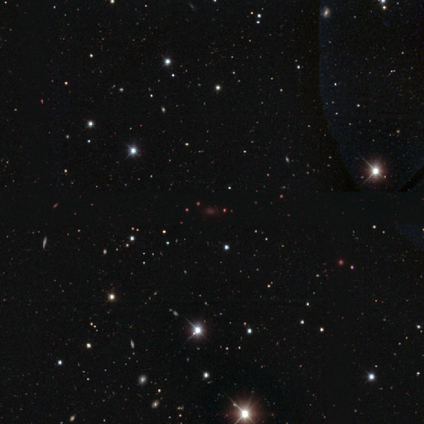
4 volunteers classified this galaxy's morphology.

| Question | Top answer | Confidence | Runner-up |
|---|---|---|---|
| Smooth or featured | star or artifact | 75% | smooth (25%) |